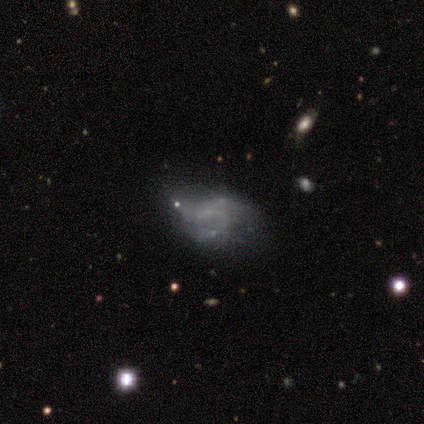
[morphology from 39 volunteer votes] A featured or disk galaxy (59%) with no bar (83%), no spiral arms (70%) and no central bulge (91%).

Vote fractions:
- Smooth or featured? featured or disk: 59% / smooth: 31% / star or artifact: 10%
- Edge-on disk? no: 100% / yes: 0%
- Bar? no: 83% / weak: 17% / strong: 0%
- Spiral arms? no: 70% / yes: 30%
- Bulge size? none: 91% / moderate: 4% / small: 4% / dominant: 0% / large: 0%
- Merging? major disturbance: 40% / none: 34% / minor disturbance: 23% / merger: 3%